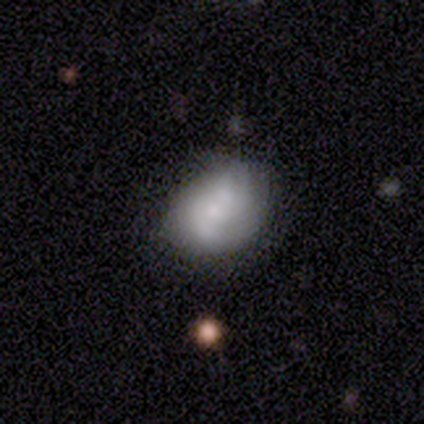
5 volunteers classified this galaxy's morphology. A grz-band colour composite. It shows a smooth galaxy with no disk features (60%) that is in between round and cigar-shaped (67%). Merging: none (80%).